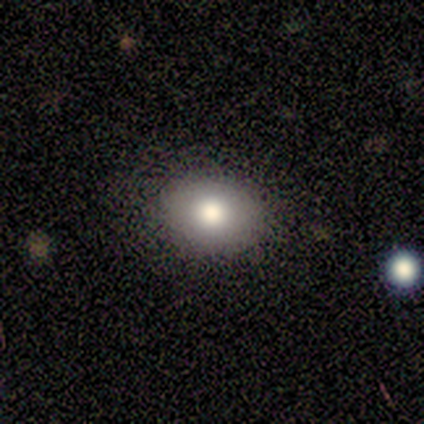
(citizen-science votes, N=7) Smooth or featured? 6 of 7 (86%) said smooth. How rounded? 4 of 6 (67%) said round. Merging? 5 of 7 (71%) said none.